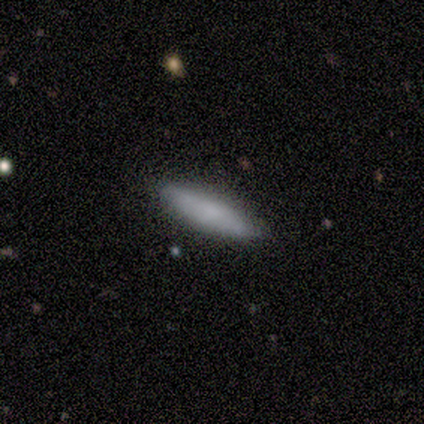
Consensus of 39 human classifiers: This appears to be a smooth galaxy with no disk features (72%) that is cigar-shaped (75%). Merging: none (92%).